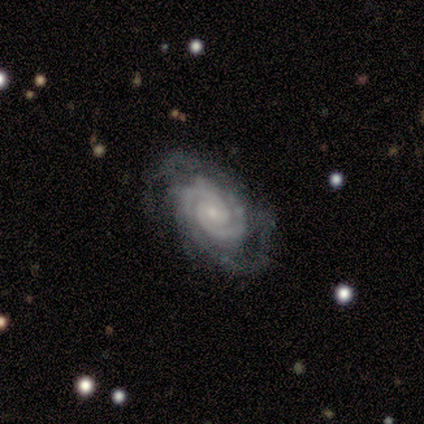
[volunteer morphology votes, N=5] type=featured or disk (100%); edge-on=no (100%); bar=no (60%); spiral arms=yes (100%); winding=tight (100%); arm count=2 (40%, tied with 4); bulge=small (80%); merging=none (40%, tied with major disturbance).